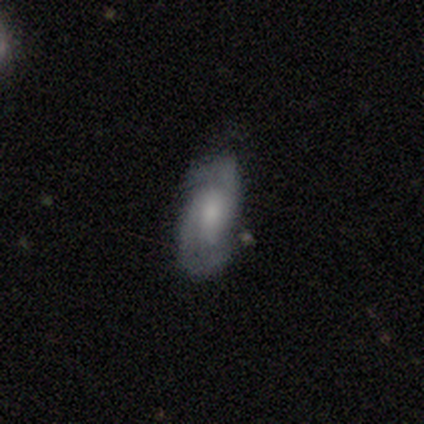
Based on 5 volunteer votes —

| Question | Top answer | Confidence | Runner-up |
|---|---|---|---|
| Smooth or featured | featured or disk | 100% | — |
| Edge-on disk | no | 100% | — |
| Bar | no | 60% | weak (40%) |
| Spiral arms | yes | 100% | — |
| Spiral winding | tight | 40% | tied: loose (40%) |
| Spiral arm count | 2 | 80% | can't tell (20%) |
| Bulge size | small | 80% | moderate (20%) |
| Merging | minor disturbance | 80% | none (20%) |